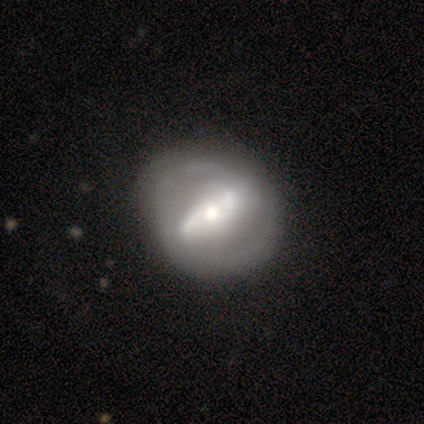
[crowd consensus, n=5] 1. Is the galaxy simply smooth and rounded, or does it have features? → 100% featured or disk, 0% smooth, 0% star or artifact.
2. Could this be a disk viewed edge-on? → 100% no, 0% yes.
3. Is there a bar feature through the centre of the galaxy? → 40% strong (tied), 40% weak (tied), 20% no.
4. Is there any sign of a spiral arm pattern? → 60% yes, 40% no.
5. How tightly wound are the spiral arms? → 33% tight (tied), 33% medium (tied), 33% loose (tied).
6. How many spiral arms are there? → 100% 2, 0% 1, 0% 3, 0% 4, 0% more than 4, 0% can't tell.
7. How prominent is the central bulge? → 40% moderate (tied), 40% small (tied), 20% dominant, 0% large, 0% none.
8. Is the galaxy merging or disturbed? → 100% none, 0% minor disturbance, 0% major disturbance, 0% merger.